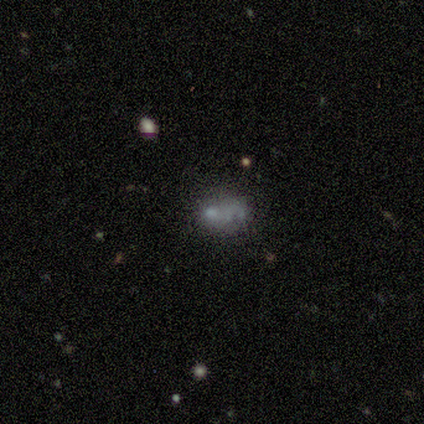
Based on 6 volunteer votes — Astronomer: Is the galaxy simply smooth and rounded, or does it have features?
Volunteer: smooth — 50% (runner-up: star or artifact, 33%).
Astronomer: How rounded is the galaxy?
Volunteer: in between — 100%.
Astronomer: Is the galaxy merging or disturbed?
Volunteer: merger — 50%.